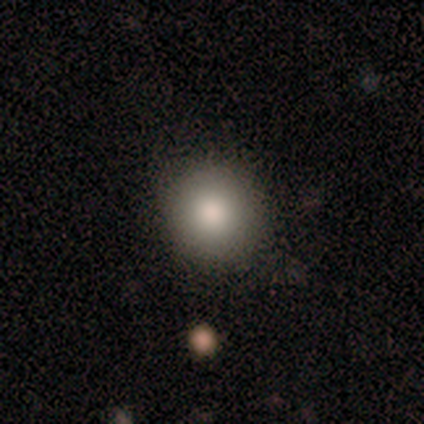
Smooth or featured? 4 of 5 (80%) said smooth. How rounded? 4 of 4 (100%) said round. Merging? 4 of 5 (80%) said none.